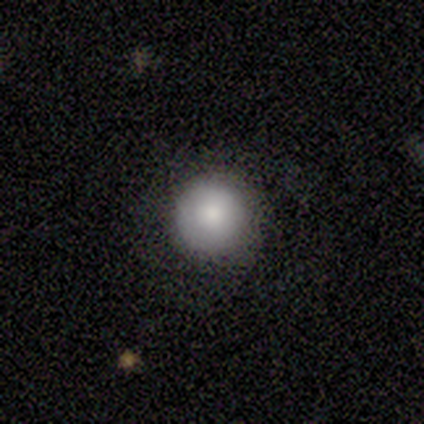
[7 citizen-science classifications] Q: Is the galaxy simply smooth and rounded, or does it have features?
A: smooth — 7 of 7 (100%).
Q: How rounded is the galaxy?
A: round — 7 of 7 (100%).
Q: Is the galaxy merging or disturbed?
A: none — 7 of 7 (100%).